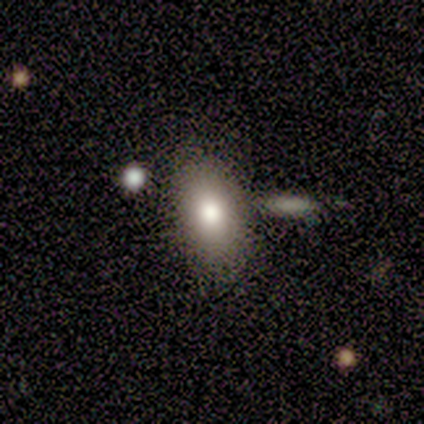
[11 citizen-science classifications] Smooth or featured? smooth (73%)
How rounded? in between (100%)
Merging? none (60%)